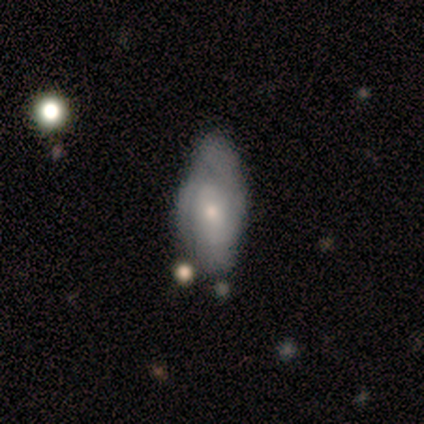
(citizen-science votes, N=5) smooth_or_featured: featured or disk (p=0.80) [alt: smooth p=0.20]
disk_edge_on: no (p=0.75) [alt: yes p=0.25]
bar: no (p=0.67) [alt: strong p=0.33]
has_spiral_arms: yes (p=0.67) [alt: no p=0.33]
spiral_winding: tight (p=0.50) [tied with: medium p=0.50]
spiral_arm_count: 2 (p=0.50) [tied with: 3 p=0.50]
bulge_size: moderate (p=0.67) [alt: small p=0.33]
merging: major disturbance (p=0.40) [tied with: merger p=0.40]